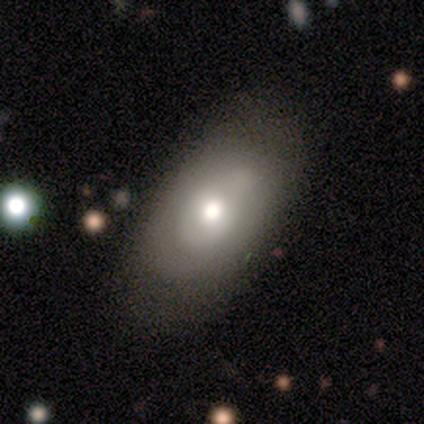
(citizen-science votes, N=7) Q: Smooth or featured?
A: smooth (71%); runner-up: featured or disk (29%)
Q: How rounded?
A: in between (80%); runner-up: round (20%)
Q: Merging?
A: none (71%); runner-up: minor disturbance (14%)